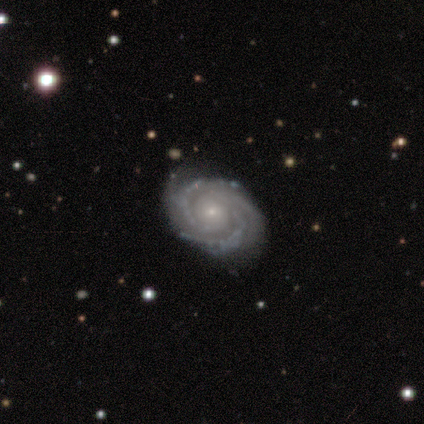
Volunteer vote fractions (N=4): smooth_or_featured: featured or disk (p=1.00)
disk_edge_on: no (p=1.00)
bar: no (p=1.00)
has_spiral_arms: yes (p=1.00)
spiral_winding: tight (p=0.75) [alt: medium p=0.25]
spiral_arm_count: 2 (p=0.50) [alt: 3 p=0.25]
bulge_size: small (p=1.00)
merging: none (p=0.75) [alt: minor disturbance p=0.25]